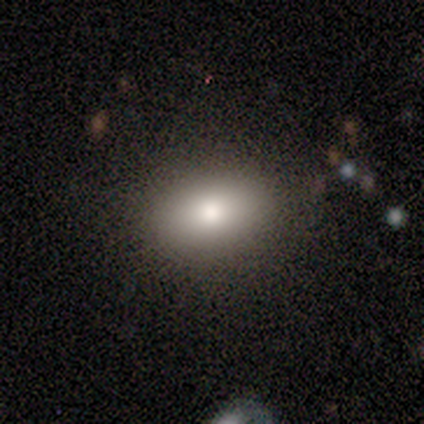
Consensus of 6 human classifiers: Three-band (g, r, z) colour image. It shows a smooth galaxy with no disk features (83%) that is round (60%). Merging: none (83%).